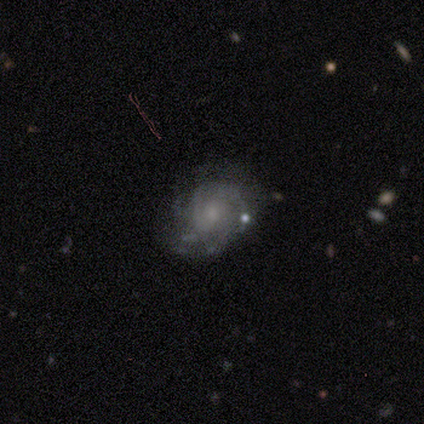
Morphology: type=featured or disk (69%); edge-on=no (100%); bar=no (74%); spiral arms=yes (81%); winding=tight (50%); arm count=can't tell (45%); bulge=small (59%); merging=none (72%).